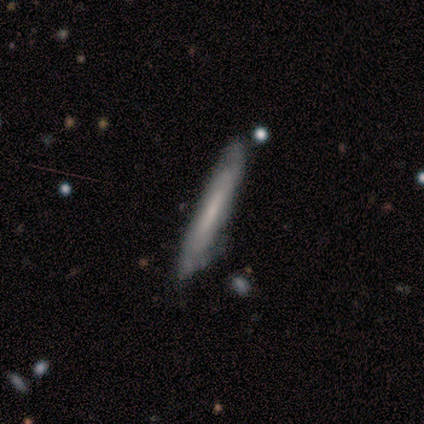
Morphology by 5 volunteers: This is likely a smooth galaxy (60%). How rounded: clearly cigar-shaped (100%). Merging: clearly none (100%).